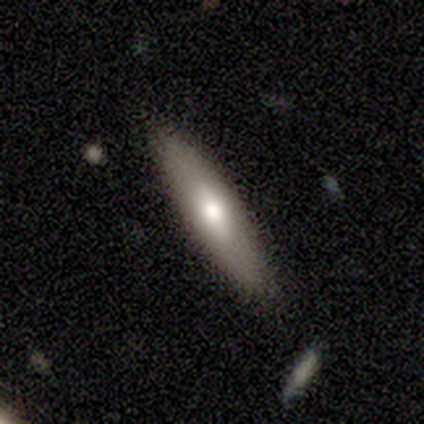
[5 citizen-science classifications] Smooth or featured? 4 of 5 (80%) said smooth. How rounded? 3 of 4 (75%) said cigar-shaped. Merging? 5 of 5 (100%) said none.